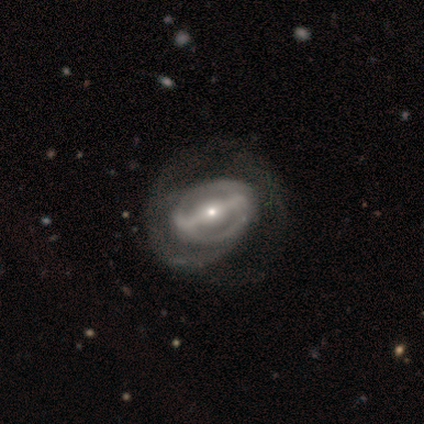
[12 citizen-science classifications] Q: Smooth or featured?
A: featured or disk (100%)
Q: Edge-on disk?
A: no (92%); runner-up: yes (8%)
Q: Bar?
A: strong (100%)
Q: Spiral arms?
A: yes (55%); runner-up: no (45%)
Q: Spiral winding?
A: medium (50%); runner-up: tight (33%)
Q: Spiral arm count?
A: 1 (67%); runner-up: 2 (17%)
Q: Bulge size?
A: small (73%); runner-up: large (18%)
Q: Merging?
A: none (50%); runner-up: major disturbance (42%)